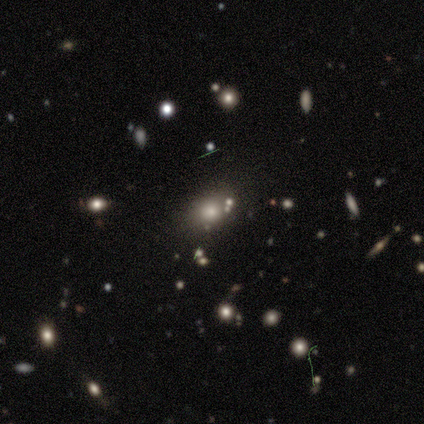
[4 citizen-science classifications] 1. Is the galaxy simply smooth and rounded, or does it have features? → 100% smooth, 0% featured or disk, 0% star or artifact.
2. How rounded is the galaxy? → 100% in between, 0% round, 0% cigar-shaped.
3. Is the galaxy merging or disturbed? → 75% none, 25% minor disturbance, 0% major disturbance, 0% merger.